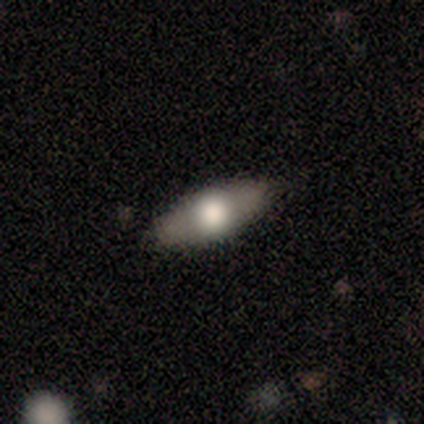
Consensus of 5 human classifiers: A smooth galaxy with no disk features (60%) that is in between round and cigar-shaped (67%).

Vote fractions:
- Smooth or featured? smooth: 60% / featured or disk: 20% / star or artifact: 20%
- How rounded? in between: 67% / cigar-shaped: 33% / round: 0%
- Merging? none: 75% / minor disturbance: 25% / major disturbance: 0% / merger: 0%